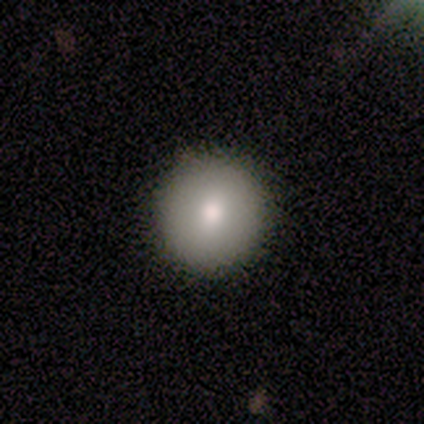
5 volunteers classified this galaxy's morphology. smooth 100%, featured or disk 0%, star or artifact 0%. Down the decision tree: how rounded — round (100%); merging — none (80%).